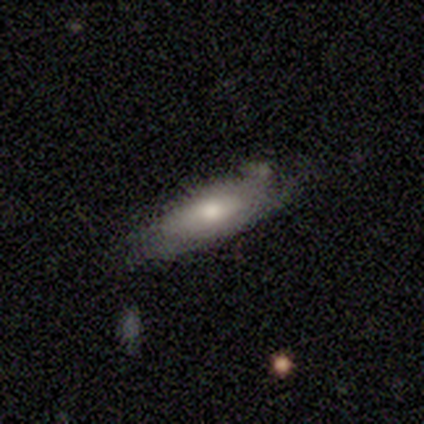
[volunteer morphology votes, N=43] Smooth or featured: smooth — 60% (featured or disk — 30%)
How rounded: in between — 69% (cigar-shaped — 31%)
Merging: none — 59% (minor disturbance — 31%)